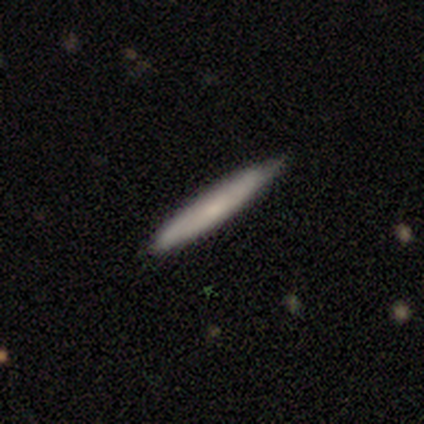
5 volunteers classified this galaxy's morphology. Volunteers were most divided on "smooth or featured": smooth: 60%, featured or disk: 20%, star or artifact: 20%. More confident: how rounded — cigar-shaped (100%); merging — none (100%).